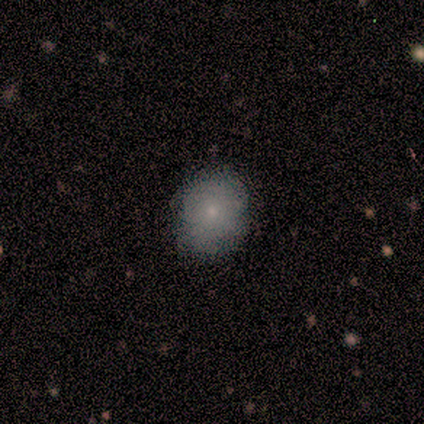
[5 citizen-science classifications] Volunteers were most divided on "smooth or featured": smooth: 80%, featured or disk: 20%, star or artifact: 0%. More confident: how rounded — round (100%); merging — none (100%).